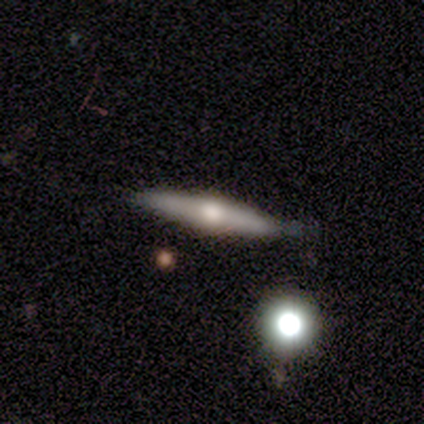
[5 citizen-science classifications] This is clearly a featured or disk galaxy (80%). It is clearly viewed edge-on (100%). Edge-on bulge: clearly rounded (100%). Merging: clearly none (80%).